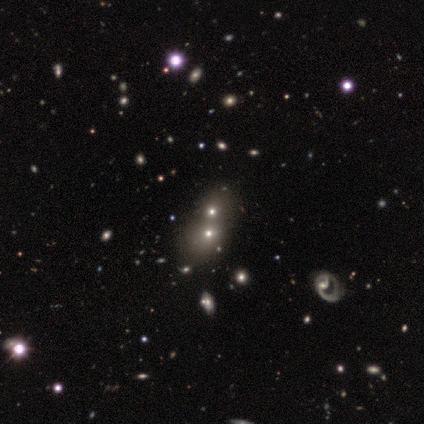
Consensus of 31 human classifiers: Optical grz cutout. It shows a smooth galaxy with no disk features (58%) that is round (56%). Merging: merger (40%).